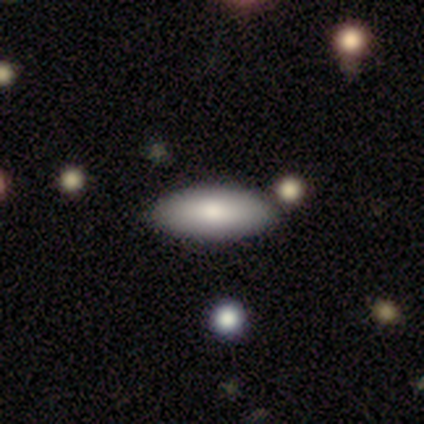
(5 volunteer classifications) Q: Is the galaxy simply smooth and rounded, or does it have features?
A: smooth — 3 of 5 (60%).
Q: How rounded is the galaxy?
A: cigar-shaped — 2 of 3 (67%).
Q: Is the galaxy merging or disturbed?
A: none — 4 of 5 (80%).